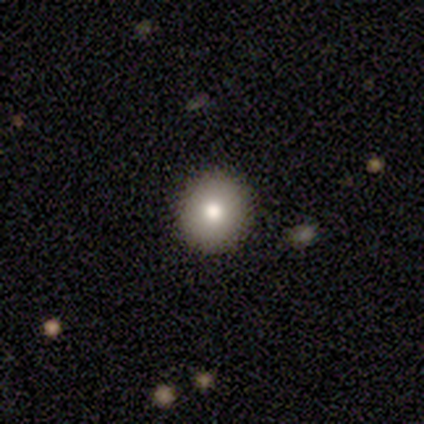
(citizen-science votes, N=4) Q: Smooth or featured?
A: smooth (100%)
Q: How rounded?
A: round (100%)
Q: Merging?
A: none (100%)